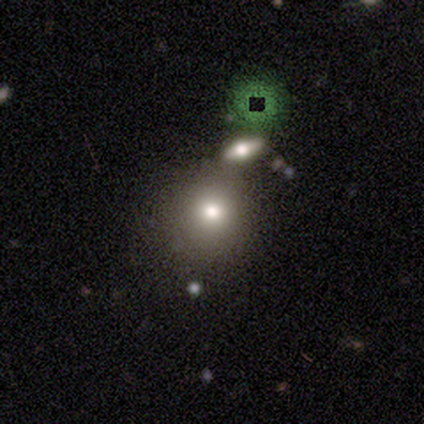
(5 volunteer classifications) smooth-or-featured: smooth: 60% | featured or disk: 40% | star or artifact: 0%
  how-rounded: round: 100% | in between: 0% | cigar-shaped: 0%
  merging: none: 80% | major disturbance: 20% | minor disturbance: 0% | merger: 0%